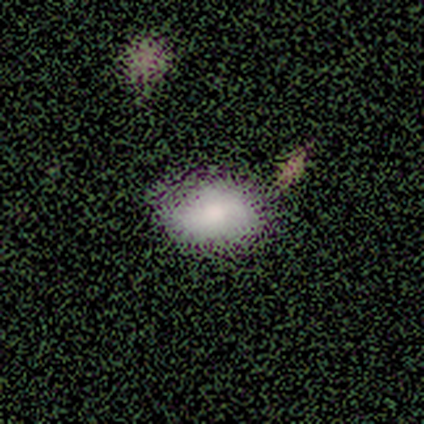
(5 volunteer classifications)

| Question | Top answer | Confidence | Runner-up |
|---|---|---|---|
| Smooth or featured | smooth | 100% | — |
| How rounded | in between | 80% | round (20%) |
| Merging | none | 80% | major disturbance (20%) |